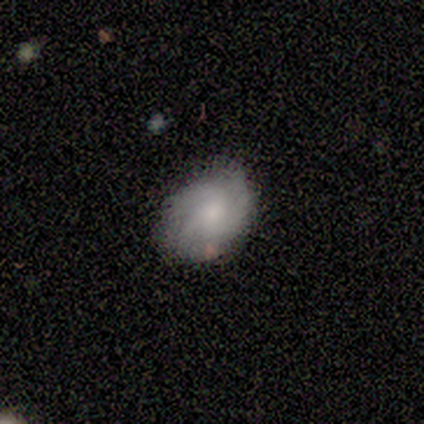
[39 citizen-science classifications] A smooth galaxy with no disk features (62%) that is in between round and cigar-shaped (71%). Merging: none (67%).